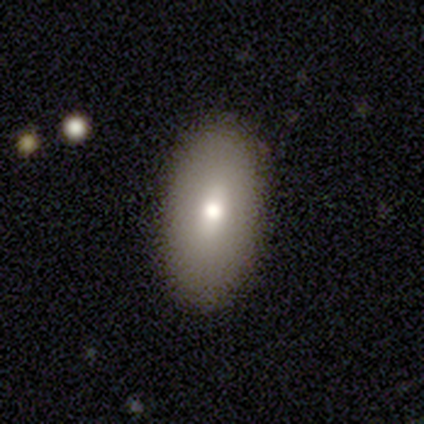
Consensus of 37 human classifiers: This appears to be a smooth galaxy with no disk features (78%) that is in between round and cigar-shaped (97%). Merging: none (97%).